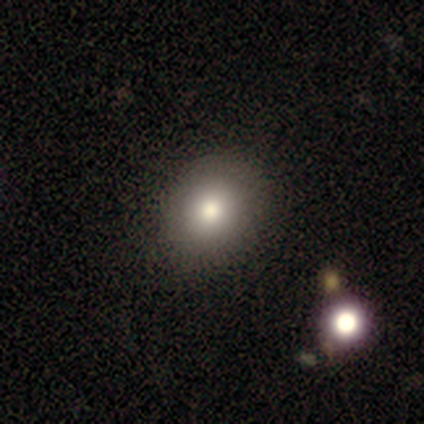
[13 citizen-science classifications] Morphology: type=smooth (77%); roundness=round (80%); merging=none (92%).